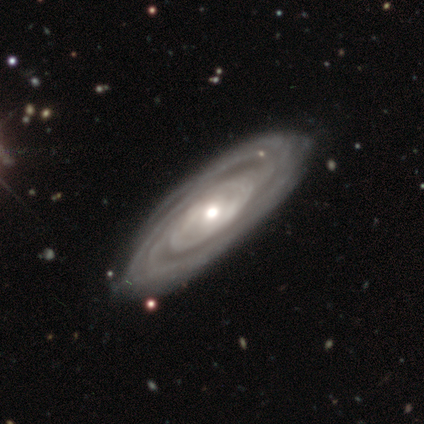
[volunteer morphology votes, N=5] featured or disk 80%, smooth 20%, star or artifact 0%. Down the decision tree: edge-on disk — no (100%); bar — no (75%); spiral arms — yes (100%); spiral arm count — can't tell (50%); spiral winding — tight (75%); bulge size — small (50%); merging — none (100%).